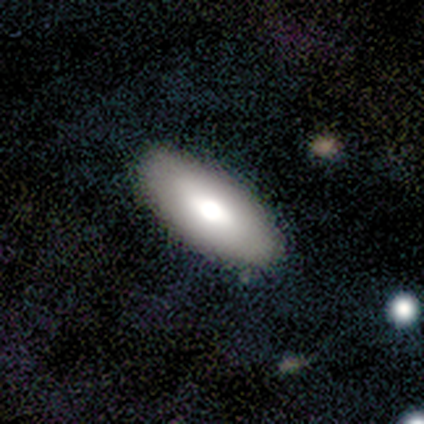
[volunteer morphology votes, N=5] Smooth or featured? smooth (80%)
How rounded? in between (100%)
Merging? none (80%)